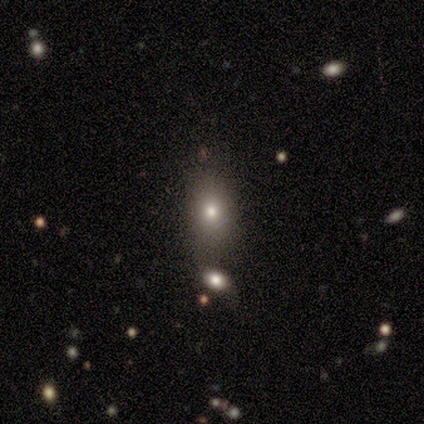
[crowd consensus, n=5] This is clearly a smooth galaxy (80%). How rounded: likely in between (75%). Merging: possibly merger (50%).